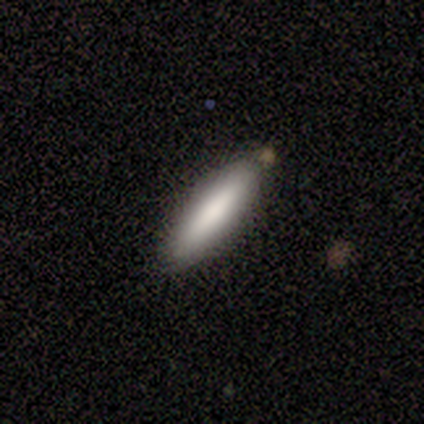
Q: Smooth or featured?
A: smooth (100%)
Q: How rounded?
A: in between (80%); runner-up: cigar-shaped (20%)
Q: Merging?
A: none (100%)